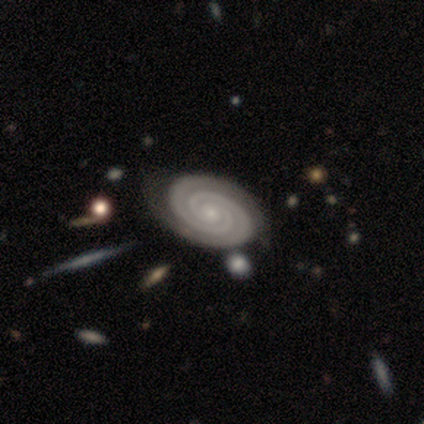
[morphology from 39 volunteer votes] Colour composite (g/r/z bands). It shows a featured or disk galaxy (97%) with no bar (79%), 2 (82%) tight (95%) spiral arms (100%) and a small central bulge (95%). Merging: none (64%).